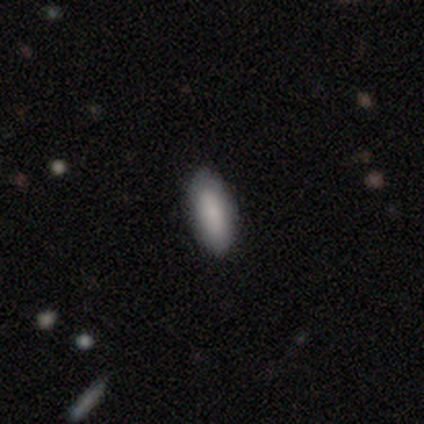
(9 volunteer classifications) Consensus on every question: smooth or featured — smooth (100%); how rounded — in between (100%); merging — none (100%).